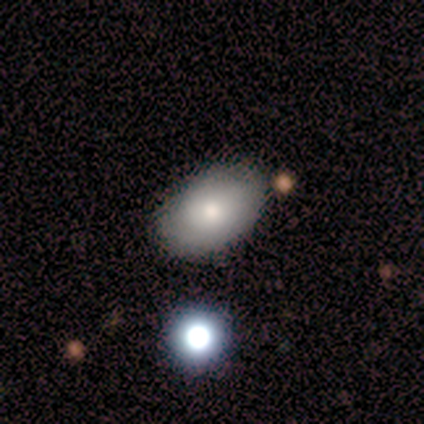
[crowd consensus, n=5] Overall: smooth (80%). How rounded: in between (75%). Merging: none (100%).